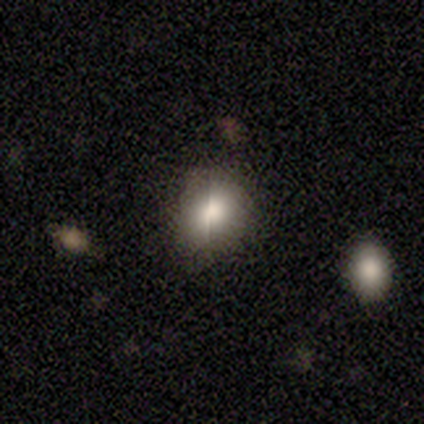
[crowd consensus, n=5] smooth 40% (tied), star or artifact 40% (tied), featured or disk 20%. Down the decision tree: how rounded — round (100%); merging — none (100%).